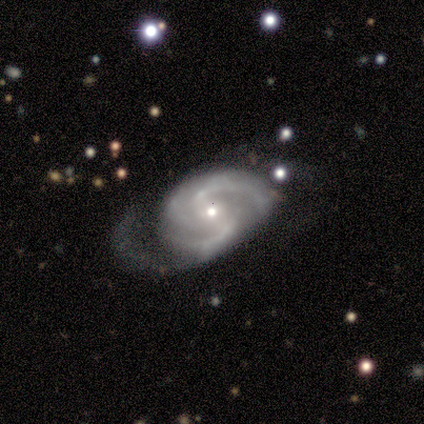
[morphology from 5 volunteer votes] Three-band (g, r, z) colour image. It shows a featured or disk galaxy (100%) with a weak bar (60%), 3 (60%) tight (40%, tied with medium) spiral arms (100%) and a small central bulge (100%). Merging: none (60%).